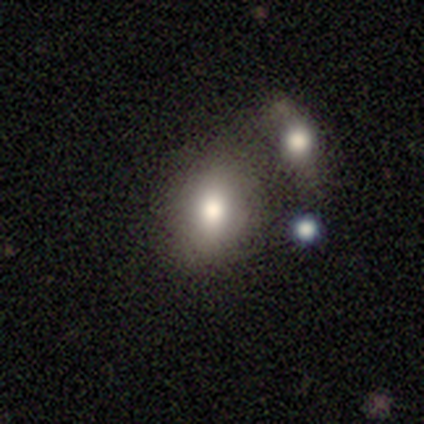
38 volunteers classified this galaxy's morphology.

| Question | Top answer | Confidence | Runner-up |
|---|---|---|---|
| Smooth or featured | smooth | 79% | featured or disk (13%) |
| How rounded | in between | 73% | round (23%) |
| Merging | none | 43% | merger (31%) |